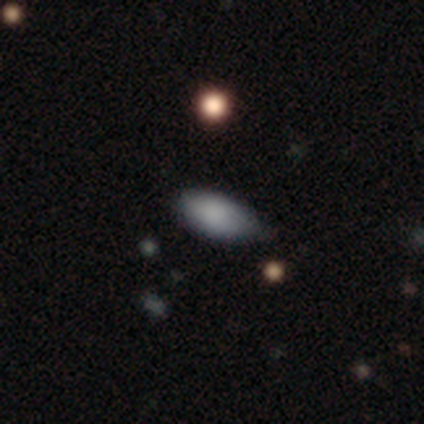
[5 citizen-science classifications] Volunteers were most divided on "merging": none: 60%, minor disturbance: 40%, major disturbance: 0%, merger: 0%. More confident: smooth or featured — smooth (100%); how rounded — in between (100%).